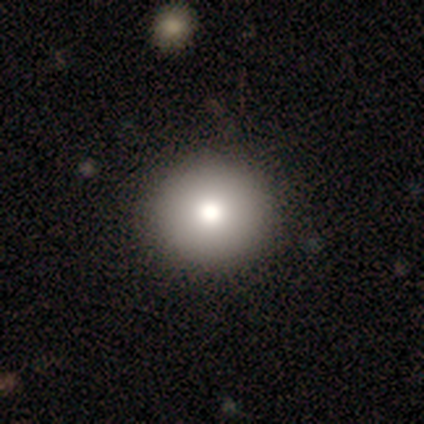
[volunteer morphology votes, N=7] Smooth or featured? 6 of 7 (86%) said smooth. How rounded? 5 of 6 (83%) said round. Merging? 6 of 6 (100%) said none.